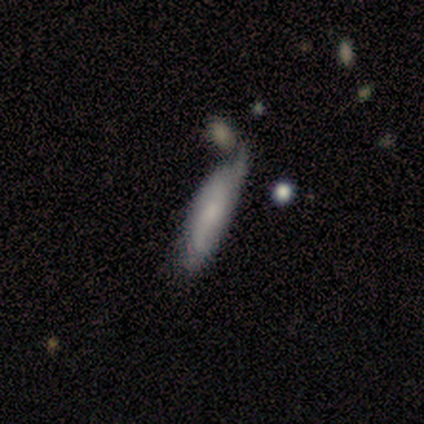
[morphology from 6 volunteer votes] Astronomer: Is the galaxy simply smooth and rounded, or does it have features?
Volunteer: smooth — 67%.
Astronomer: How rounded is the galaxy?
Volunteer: cigar-shaped — 75%.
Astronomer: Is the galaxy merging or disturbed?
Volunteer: minor disturbance — 50% (runner-up: none, 33%).